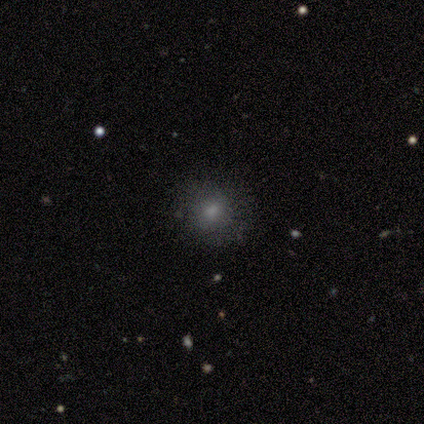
A smooth galaxy with no disk features (80%) that is round (100%). Merging: none (50%, tied with minor disturbance).